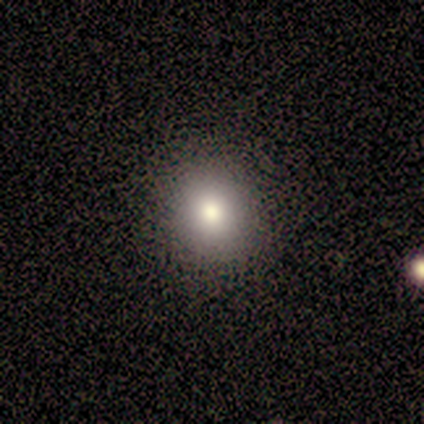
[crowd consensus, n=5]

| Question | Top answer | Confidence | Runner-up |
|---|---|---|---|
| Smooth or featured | smooth | 80% | featured or disk (20%) |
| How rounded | in between | 75% | round (25%) |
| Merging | none | 100% | — |